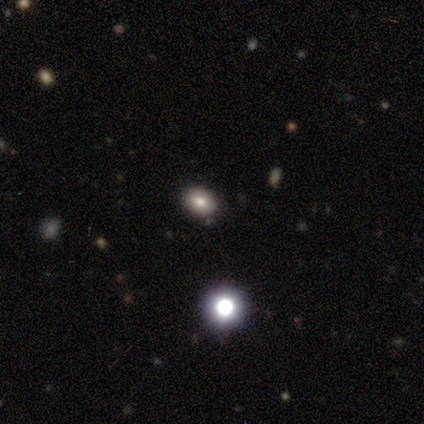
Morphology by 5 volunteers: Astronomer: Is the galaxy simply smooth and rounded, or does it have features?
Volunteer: smooth — 60% (runner-up: star or artifact, 40%).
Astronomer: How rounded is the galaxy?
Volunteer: in between — 100%.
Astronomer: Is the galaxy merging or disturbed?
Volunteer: none — 100%.